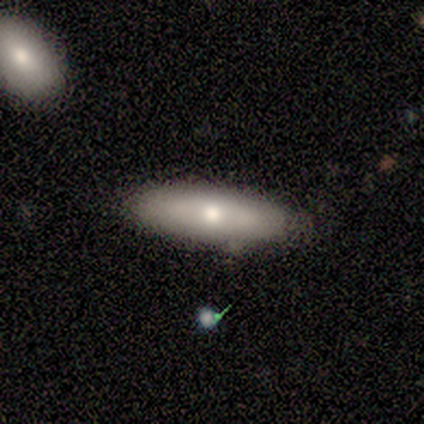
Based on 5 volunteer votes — Q: Smooth or featured?
A: featured or disk (60%); runner-up: smooth (40%)
Q: Edge-on disk?
A: no (67%); runner-up: yes (33%)
Q: Bar?
A: no (100%)
Q: Spiral arms?
A: no (100%)
Q: Bulge size?
A: moderate (100%)
Q: Merging?
A: none (60%); runner-up: minor disturbance (40%)